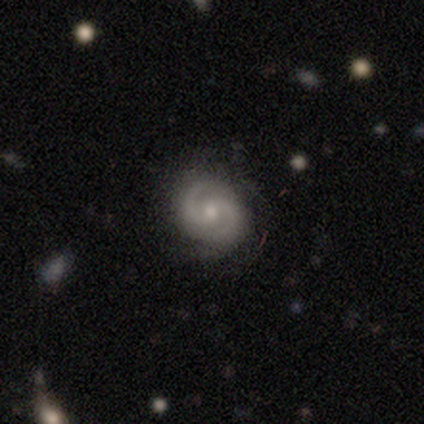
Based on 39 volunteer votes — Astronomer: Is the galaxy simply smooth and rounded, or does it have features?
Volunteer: featured or disk — 92%.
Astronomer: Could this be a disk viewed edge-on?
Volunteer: no — 100%.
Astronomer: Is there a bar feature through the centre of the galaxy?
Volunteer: weak — 53% (runner-up: no, 39%).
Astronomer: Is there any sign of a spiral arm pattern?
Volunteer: yes — 89%.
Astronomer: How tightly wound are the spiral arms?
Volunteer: medium — 62%.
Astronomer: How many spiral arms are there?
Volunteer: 2 — 97%.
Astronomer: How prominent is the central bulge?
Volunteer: small — 61%.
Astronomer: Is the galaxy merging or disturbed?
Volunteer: none — 87%.